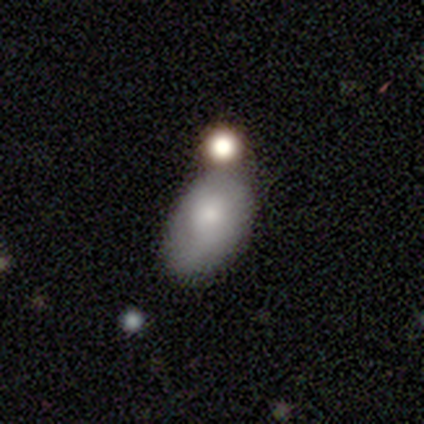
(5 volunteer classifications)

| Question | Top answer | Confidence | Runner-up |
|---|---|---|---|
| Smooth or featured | smooth | 80% | featured or disk (20%) |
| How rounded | in between | 75% | round (25%) |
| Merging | minor disturbance | 60% | none (40%) |